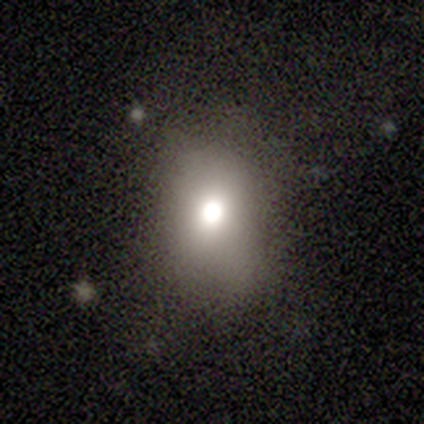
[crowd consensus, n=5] This appears to be a smooth galaxy with no disk features (80%) that is round (50%, tied with in between). Merging: none (100%).